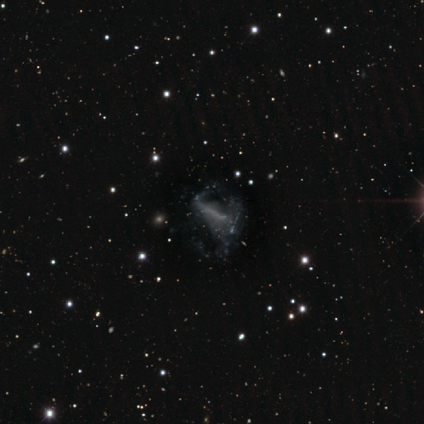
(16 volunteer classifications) A featured or disk galaxy (69%) with no bar (60%), no spiral arms (90%) and no central bulge (60%). Merging: major disturbance (67%).